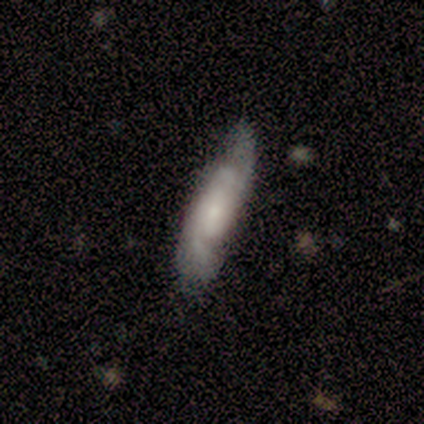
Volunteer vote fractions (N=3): This is likely a featured or disk galaxy (67%). It is possibly viewed edge-on (50%, tied with no). Edge-on bulge: clearly none (100%). Merging: marginally none (33%, tied with minor disturbance and merger).